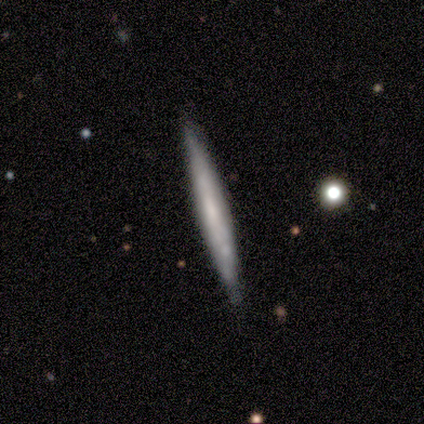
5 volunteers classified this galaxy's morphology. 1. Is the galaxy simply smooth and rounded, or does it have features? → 60% featured or disk, 40% smooth, 0% star or artifact.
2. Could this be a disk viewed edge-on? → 100% yes, 0% no.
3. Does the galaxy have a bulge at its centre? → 33% boxy (tied), 33% none (tied), 33% rounded (tied).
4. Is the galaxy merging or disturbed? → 60% none, 40% minor disturbance, 0% major disturbance, 0% merger.